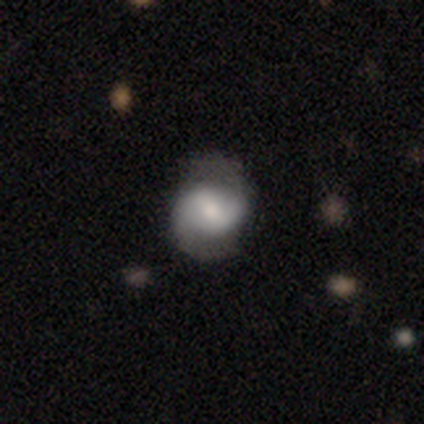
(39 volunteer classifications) A featured or disk galaxy (77%) with a weak bar (57%), 2 (96%) medium (61%) spiral arms (93%) and a moderate central bulge (50%). Merging: none (72%).